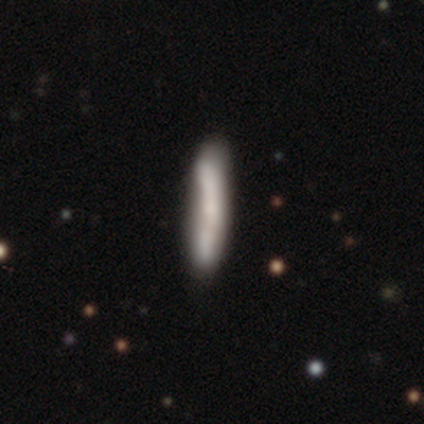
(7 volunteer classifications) Volunteers were most divided on "merging": none: 86%, minor disturbance: 14%, major disturbance: 0%, merger: 0%. More confident: smooth or featured — smooth (100%); how rounded — cigar-shaped (100%).